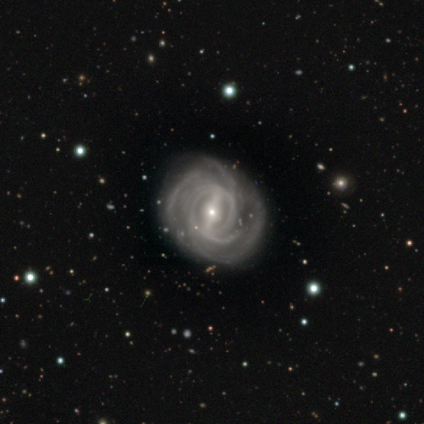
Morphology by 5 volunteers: Q: Smooth or featured?
A: featured or disk (100%)
Q: Edge-on disk?
A: no (100%)
Q: Bar?
A: strong (80%); runner-up: weak (20%)
Q: Spiral arms?
A: yes (100%)
Q: Spiral winding?
A: tight (60%); runner-up: medium (40%)
Q: Spiral arm count?
A: can't tell (80%); runner-up: 4 (20%)
Q: Bulge size?
A: small (60%); runner-up: moderate (40%)
Q: Merging?
A: minor disturbance (60%); runner-up: none (40%)